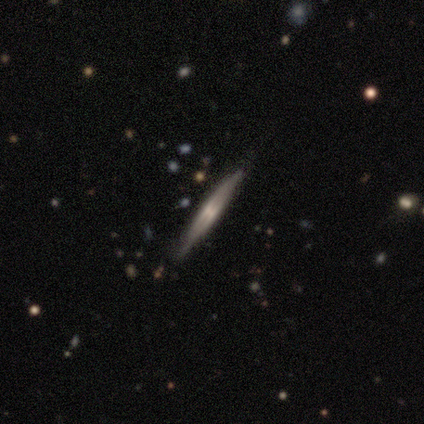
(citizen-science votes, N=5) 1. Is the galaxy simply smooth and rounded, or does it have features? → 100% featured or disk, 0% smooth, 0% star or artifact.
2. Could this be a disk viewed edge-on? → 80% yes, 20% no.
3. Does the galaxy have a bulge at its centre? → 50% none (tied), 50% rounded (tied), 0% boxy.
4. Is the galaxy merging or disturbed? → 60% none, 20% minor disturbance, 20% major disturbance, 0% merger.